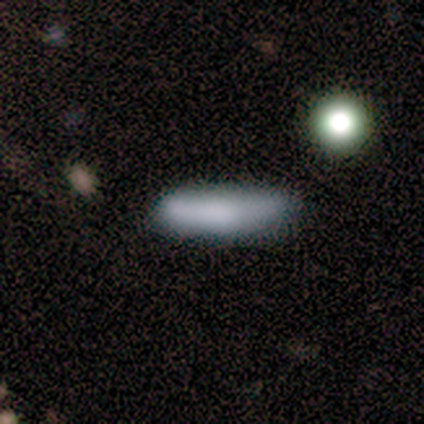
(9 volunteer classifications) smooth-or-featured: smooth: 67% | featured or disk: 33% | star or artifact: 0%
  how-rounded: cigar-shaped: 100% | round: 0% | in between: 0%
  merging: minor disturbance: 67% | none: 33% | major disturbance: 0% | merger: 0%